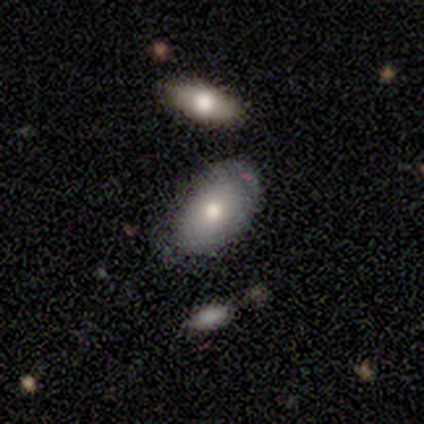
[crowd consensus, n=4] A smooth galaxy with no disk features (100%) that is in between round and cigar-shaped (75%).

Vote fractions:
- Smooth or featured? smooth: 100% / featured or disk: 0% / star or artifact: 0%
- How rounded? in between: 75% / round: 25% / cigar-shaped: 0%
- Merging? minor disturbance: 50% / none: 25% / merger: 25% / major disturbance: 0%